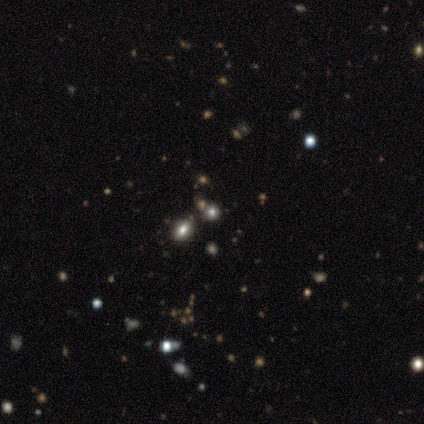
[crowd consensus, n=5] Smooth or featured? 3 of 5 (60%) said star or artifact.